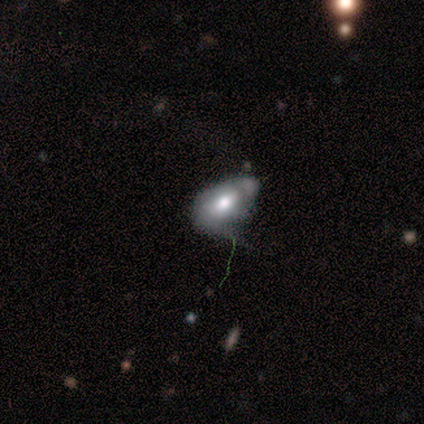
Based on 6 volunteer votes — Smooth or featured: smooth — 83% (featured or disk — 17%)
How rounded: in between — 100%
Merging: none — 50% (minor disturbance — 33%)